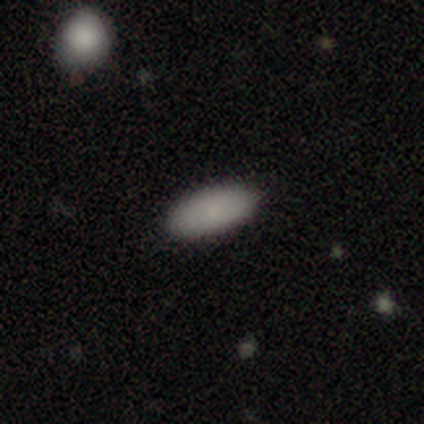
This appears to be a smooth galaxy with no disk features (100%) that is in between round and cigar-shaped (100%). Merging: none (100%).